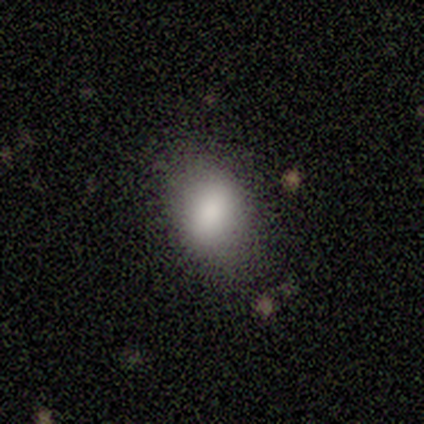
This is clearly a smooth galaxy (100%). How rounded: marginally round (40%, tied with in between). Merging: clearly none (80%).